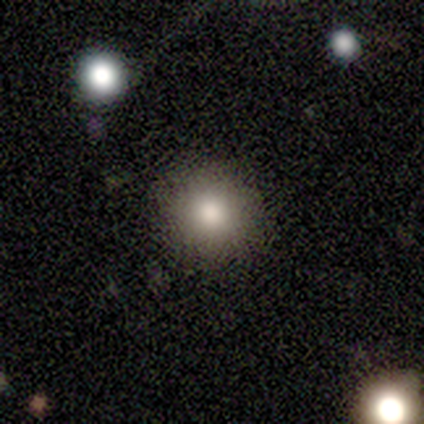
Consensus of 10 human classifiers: This is clearly a smooth galaxy (80%). How rounded: clearly round (100%). Merging: clearly none (100%).